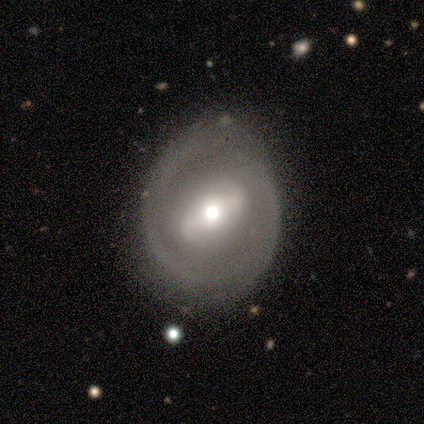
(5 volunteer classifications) smooth-or-featured: featured or disk: 80% | smooth: 20% | star or artifact: 0%
  disk-edge-on: no: 100% | yes: 0%
    bar: weak: 50% (tied) | no: 50% (tied) | strong: 0%
    has-spiral-arms: yes: 75% | no: 25%
      spiral-winding: tight: 33% (tied) | medium: 33% (tied) | loose: 33% (tied)
      spiral-arm-count: 2: 67% | can't tell: 33% | 1: 0% | 3: 0% | 4: 0% | more than 4: 0%
    bulge-size: moderate: 50% | large: 25% | small: 25% | dominant: 0% | none: 0%
  merging: minor disturbance: 80% | none: 20% | major disturbance: 0% | merger: 0%